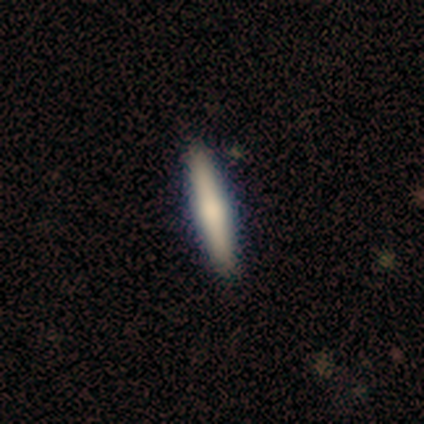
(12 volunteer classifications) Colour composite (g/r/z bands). It shows a smooth galaxy with no disk features (67%) that is cigar-shaped (88%). Merging: none (92%).